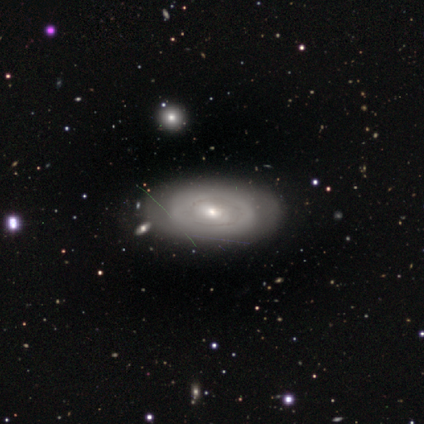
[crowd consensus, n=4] This is possibly a smooth galaxy (50%, tied with featured or disk). How rounded: clearly in between (100%). Merging: clearly none (100%).